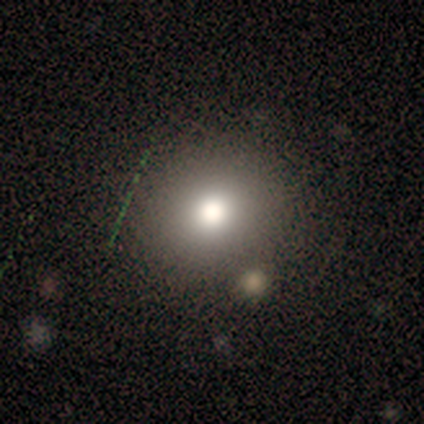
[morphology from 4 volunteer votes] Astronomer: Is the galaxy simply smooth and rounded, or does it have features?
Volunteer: smooth — 100%.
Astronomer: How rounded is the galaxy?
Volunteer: round — 50%, tied with in between at 50%.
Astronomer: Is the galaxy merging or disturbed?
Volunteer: none — 100%.